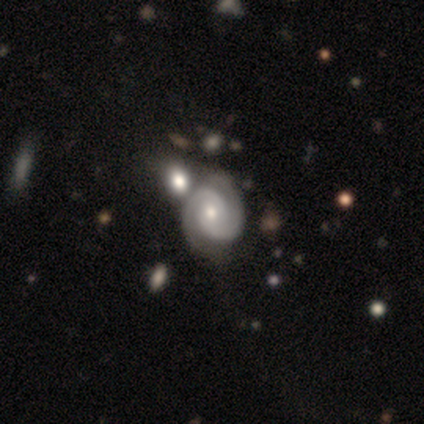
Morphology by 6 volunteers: Overall: featured or disk (100%). Edge-on disk: no (100%). Bar: weak (50%, tied with no). Spiral arms: yes (83%). Spiral arm count: 2 (100%). Spiral winding: medium (80%). Bulge size: moderate (50%, tied with small). Merging: none (50%, tied with minor disturbance).